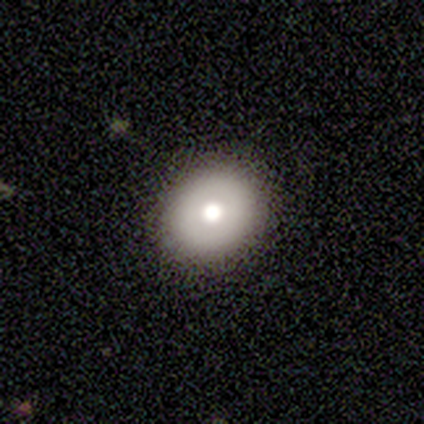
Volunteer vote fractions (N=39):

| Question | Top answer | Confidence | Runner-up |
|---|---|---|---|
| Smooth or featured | smooth | 82% | featured or disk (18%) |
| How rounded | round | 66% | in between (34%) |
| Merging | none | 90% | minor disturbance (5%) |